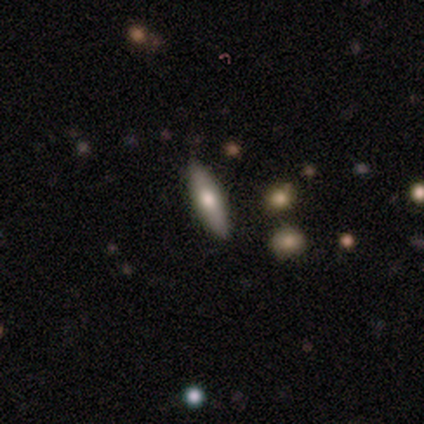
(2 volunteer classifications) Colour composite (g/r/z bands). It shows a smooth galaxy with no disk features (100%) that is cigar-shaped (100%). Merging: none (100%).